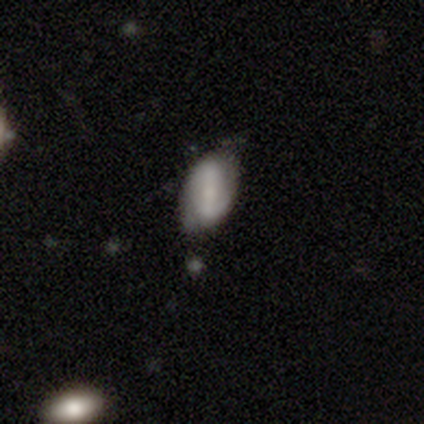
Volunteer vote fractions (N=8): A featured or disk galaxy (62%) with a weak bar (60%), 2 (100%) tight (33%, tied with medium and loose) spiral arms (60%) and a small central bulge (40%, tied with none).

Vote fractions:
- Smooth or featured? featured or disk: 62% / smooth: 38% / star or artifact: 0%
- Edge-on disk? no: 100% / yes: 0%
- Bar? weak: 60% / strong: 40% / no: 0%
- Spiral arms? yes: 60% / no: 40%
- Spiral winding? tight: 33% (tied) / medium: 33% (tied) / loose: 33% (tied)
- Spiral arm count? 2: 100% / 1: 0% / 3: 0% / 4: 0% / more than 4: 0% / can't tell: 0%
- Bulge size? small: 40% (tied) / none: 40% (tied) / moderate: 20% / dominant: 0% / large: 0%
- Merging? none: 75% / minor disturbance: 25% / major disturbance: 0% / merger: 0%